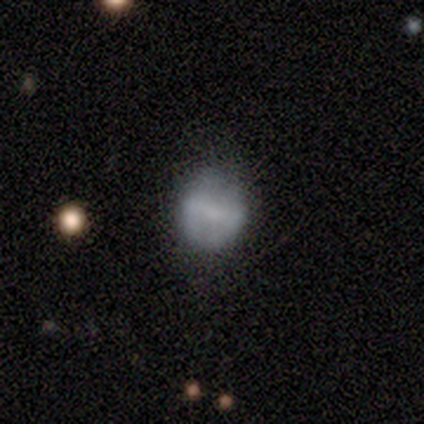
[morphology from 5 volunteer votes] A featured or disk galaxy (80%) with a strong bar (33%, tied with weak and no), no spiral arms (100%) and a moderate central bulge (67%).

Vote fractions:
- Smooth or featured? featured or disk: 80% / smooth: 20% / star or artifact: 0%
- Edge-on disk? no: 75% / yes: 25%
- Bar? strong: 33% (tied) / weak: 33% (tied) / no: 33% (tied)
- Spiral arms? no: 100% / yes: 0%
- Bulge size? moderate: 67% / none: 33% / dominant: 0% / large: 0% / small: 0%
- Merging? none: 80% / minor disturbance: 20% / major disturbance: 0% / merger: 0%